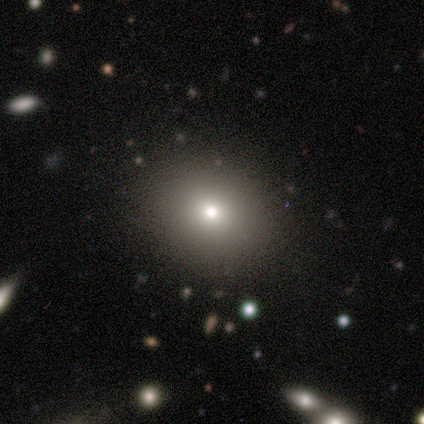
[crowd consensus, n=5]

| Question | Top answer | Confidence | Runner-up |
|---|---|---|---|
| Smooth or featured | smooth | 80% | featured or disk (20%) |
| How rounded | in between | 75% | round (25%) |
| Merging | none | 80% | minor disturbance (20%) |